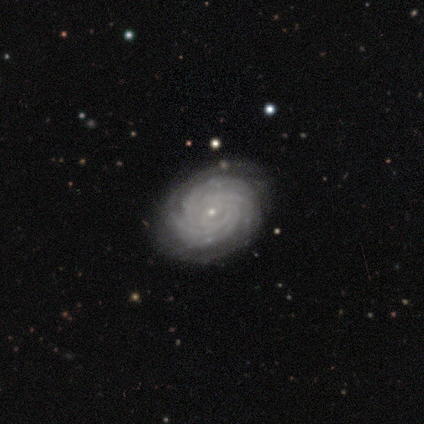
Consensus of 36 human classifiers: Smooth or featured? featured or disk (92%)
Edge-on disk? no (97%)
Bar? no (69%)
Spiral arms? yes (100%)
Spiral winding? tight (94%)
Spiral arm count? more than 4 (44%)
Bulge size? small (84%)
Merging? none (60%)